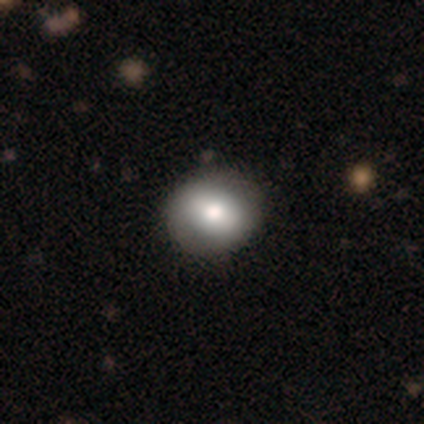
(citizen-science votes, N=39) Morphology: type=smooth (69%); roundness=round (70%); merging=none (64%).